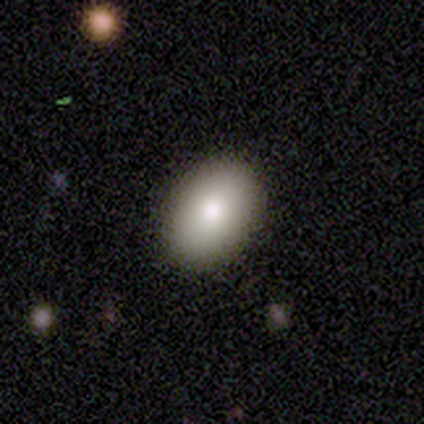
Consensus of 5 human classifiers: A smooth galaxy with no disk features (60%) that is in between round and cigar-shaped (100%).

Vote fractions:
- Smooth or featured? smooth: 60% / featured or disk: 20% / star or artifact: 20%
- How rounded? in between: 100% / round: 0% / cigar-shaped: 0%
- Merging? none: 100% / minor disturbance: 0% / major disturbance: 0% / merger: 0%